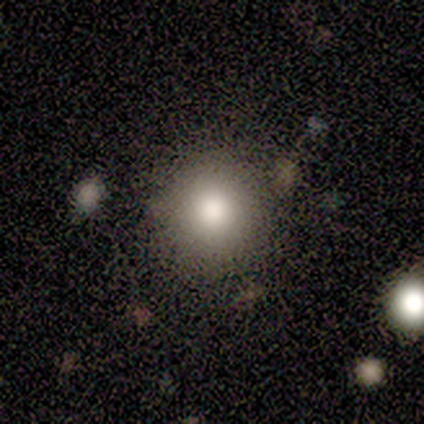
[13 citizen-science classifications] smooth-or-featured: smooth: 85% | star or artifact: 15% | featured or disk: 0%
  how-rounded: round: 100% | in between: 0% | cigar-shaped: 0%
  merging: none: 100% | minor disturbance: 0% | major disturbance: 0% | merger: 0%